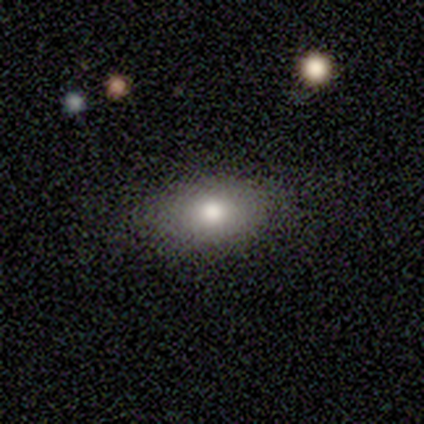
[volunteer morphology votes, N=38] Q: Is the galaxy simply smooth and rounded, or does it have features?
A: smooth — 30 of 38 (79%).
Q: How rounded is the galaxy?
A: in between — 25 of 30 (83%).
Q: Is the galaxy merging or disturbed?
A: none — 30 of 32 (94%).